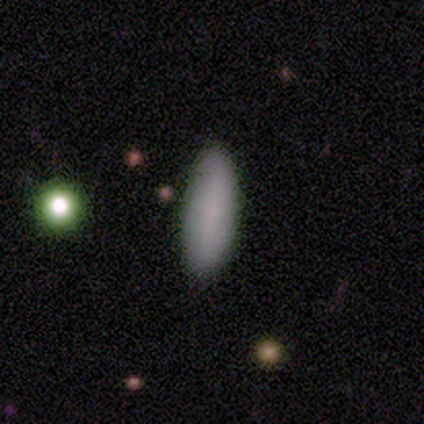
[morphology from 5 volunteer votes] This is clearly a smooth galaxy (80%). How rounded: likely cigar-shaped (75%). Merging: likely none (60%).